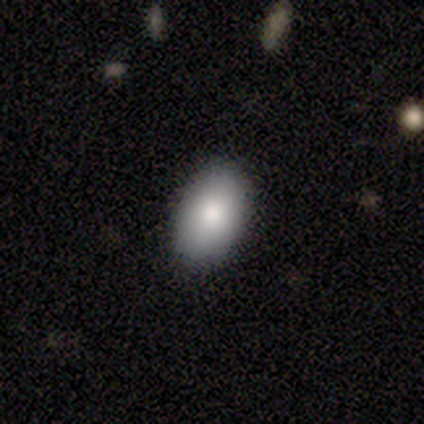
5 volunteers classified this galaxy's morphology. Smooth or featured? smooth (60%)
How rounded? in between (100%)
Merging? none (100%)